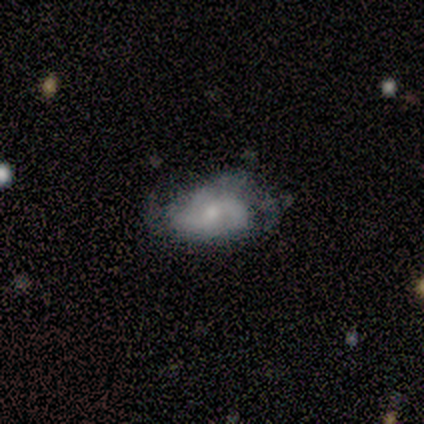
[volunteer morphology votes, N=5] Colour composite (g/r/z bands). It shows a featured or disk galaxy (60%) with no bar (67%), 3 (50%, tied with can't tell) medium (50%, tied with loose) spiral arms (67%) and a small central bulge (67%). Merging: none (60%).